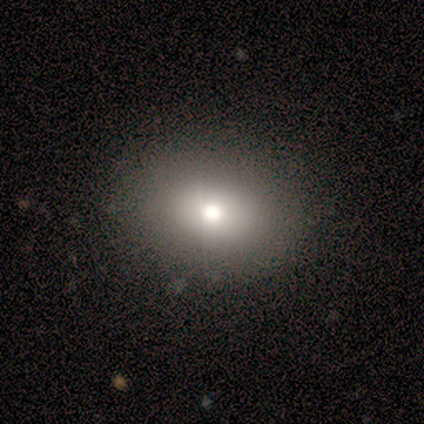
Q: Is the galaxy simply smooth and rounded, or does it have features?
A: smooth — 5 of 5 (100%).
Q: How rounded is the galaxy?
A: in between — 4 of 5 (80%).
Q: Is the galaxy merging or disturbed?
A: none — 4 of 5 (80%).